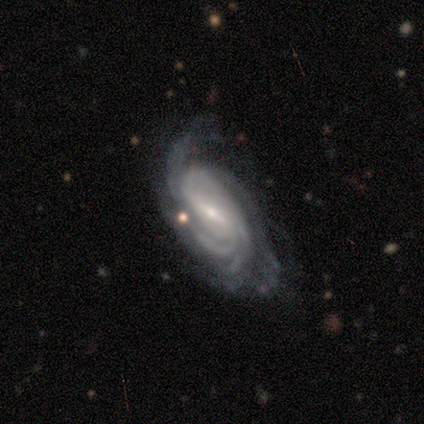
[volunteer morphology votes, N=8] smooth-or-featured: featured or disk: 88% | smooth: 12% | star or artifact: 0%
  disk-edge-on: no: 100% | yes: 0%
    bar: weak: 71% | strong: 29% | no: 0%
    has-spiral-arms: yes: 100% | no: 0%
      spiral-winding: tight: 71% | medium: 14% | loose: 14%
      spiral-arm-count: 2: 29% (tied) | 3: 29% (tied) | 4: 14% | more than 4: 14% | can't tell: 14% | 1: 0%
    bulge-size: small: 86% | moderate: 14% | dominant: 0% | large: 0% | none: 0%
  merging: none: 50% (tied) | minor disturbance: 50% (tied) | major disturbance: 0% | merger: 0%